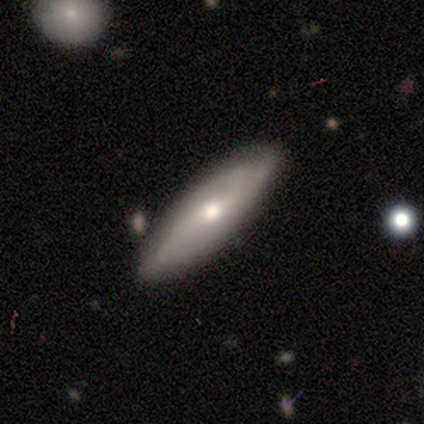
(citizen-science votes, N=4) Smooth or featured?
  - featured or disk: 75% *
  - smooth: 25%
  - star or artifact: 0%
Edge-on disk?
  - no: 100% *
  - yes: 0%
Bar?
  - strong: 33% * (tied)
  - weak: 33% * (tied)
  - no: 33% * (tied)
Spiral arms?
  - yes: 100% *
  - no: 0%
Spiral winding?
  - medium: 67% *
  - loose: 33%
  - tight: 0%
Spiral arm count?
  - 3: 67% *
  - 2: 33%
  - 1: 0%
  - 4: 0%
  - more than 4: 0%
  - can't tell: 0%
Bulge size?
  - small: 67% *
  - moderate: 33%
  - dominant: 0%
  - large: 0%
  - none: 0%
Merging?
  - none: 75% *
  - merger: 25%
  - minor disturbance: 0%
  - major disturbance: 0%